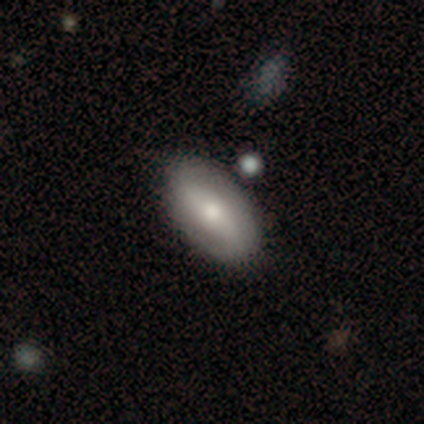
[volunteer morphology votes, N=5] This is likely a featured or disk galaxy (60%). It is clearly not viewed edge-on (100%). Bar: likely no (67%). Spiral arm pattern: likely yes (67%). Spiral arm count: possibly 2 (50%, tied with can't tell). Spiral winding: possibly tight (50%, tied with loose). Central bulge: clearly moderate (100%). Merging: clearly none (80%).